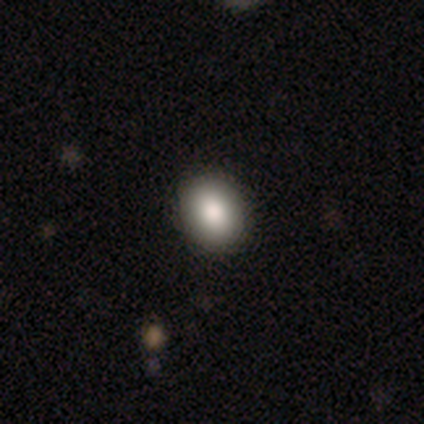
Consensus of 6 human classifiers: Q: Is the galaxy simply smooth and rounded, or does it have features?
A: smooth — 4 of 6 (67%).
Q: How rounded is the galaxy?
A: round — 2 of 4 (50%, tied with in between).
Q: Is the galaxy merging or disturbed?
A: none — 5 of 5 (100%).